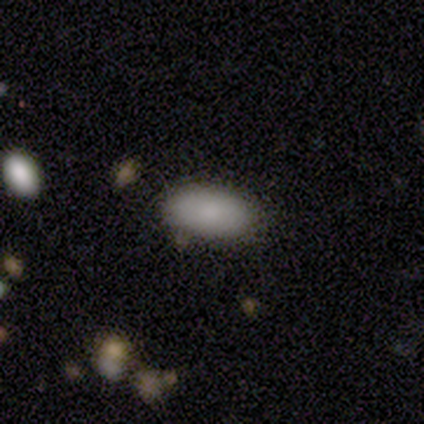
Smooth or featured? smooth (100%)
How rounded? in between (100%)
Merging? none (100%)